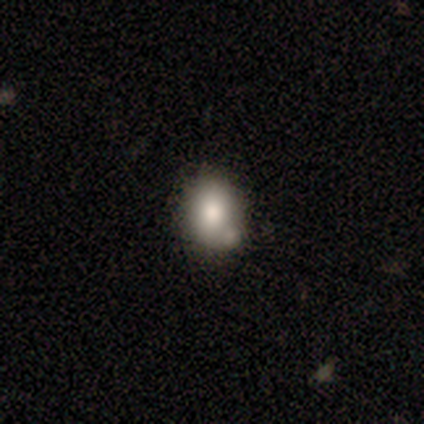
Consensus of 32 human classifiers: This appears to be a smooth galaxy with no disk features (66%) that is round (52%). Merging: none (64%).